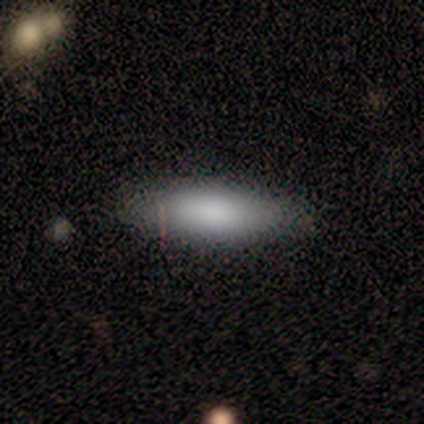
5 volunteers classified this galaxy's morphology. Smooth or featured?
  - smooth: 100% *
  - featured or disk: 0%
  - star or artifact: 0%
How rounded?
  - in between: 60% *
  - cigar-shaped: 40%
  - round: 0%
Merging?
  - none: 80% *
  - minor disturbance: 20%
  - major disturbance: 0%
  - merger: 0%